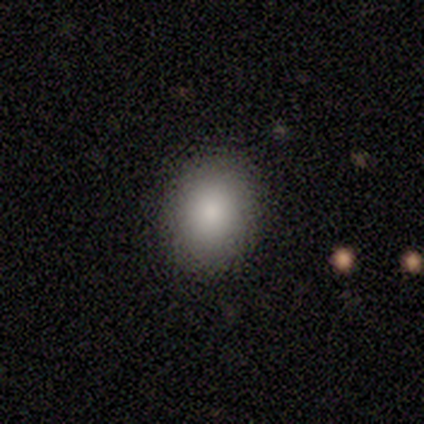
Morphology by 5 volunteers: A smooth galaxy with no disk features (100%) that is round (80%).

Vote fractions:
- Smooth or featured? smooth: 100% / featured or disk: 0% / star or artifact: 0%
- How rounded? round: 80% / in between: 20% / cigar-shaped: 0%
- Merging? none: 80% / minor disturbance: 20% / major disturbance: 0% / merger: 0%